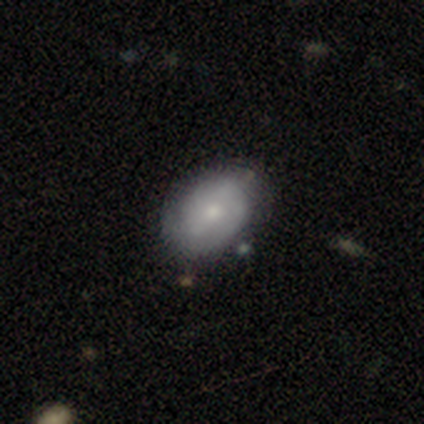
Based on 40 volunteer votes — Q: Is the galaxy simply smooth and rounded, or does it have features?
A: smooth — 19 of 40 (48%).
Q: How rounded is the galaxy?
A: in between — 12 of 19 (63%).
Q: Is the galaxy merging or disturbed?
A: none — 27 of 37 (73%).